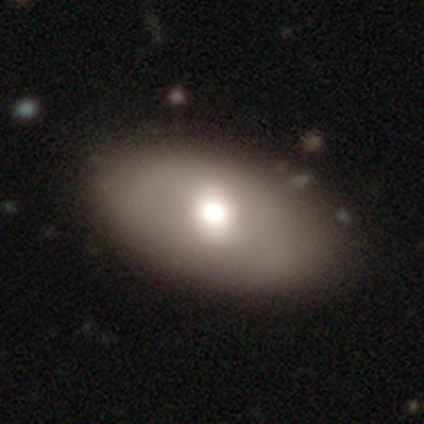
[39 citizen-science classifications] Volunteers were most divided on "smooth or featured": smooth: 74%, featured or disk: 23%, star or artifact: 3%. More confident: how rounded — in between (86%); merging — none (76%).